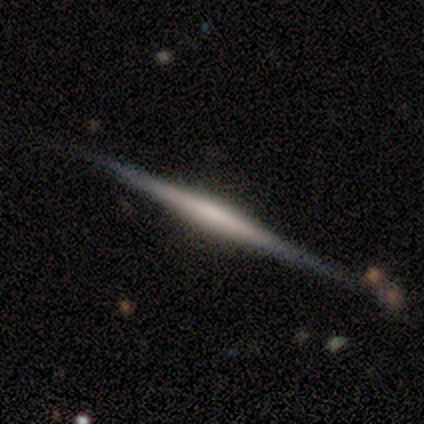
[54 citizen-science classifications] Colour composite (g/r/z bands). It shows a featured or disk galaxy (81%) viewed edge-on (98%) with no central bulge (56%). Merging: none (90%).